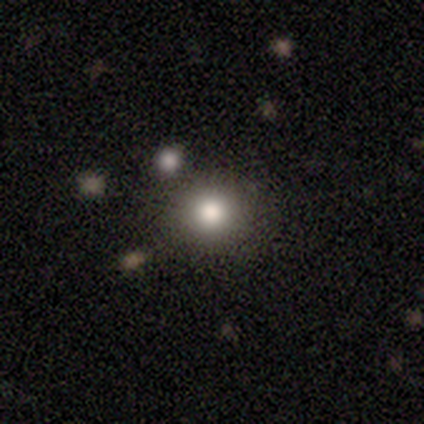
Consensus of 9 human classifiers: A smooth galaxy with no disk features (89%) that is round (75%).

Vote fractions:
- Smooth or featured? smooth: 89% / star or artifact: 11% / featured or disk: 0%
- How rounded? round: 75% / in between: 25% / cigar-shaped: 0%
- Merging? none: 75% / major disturbance: 12% / merger: 12% / minor disturbance: 0%